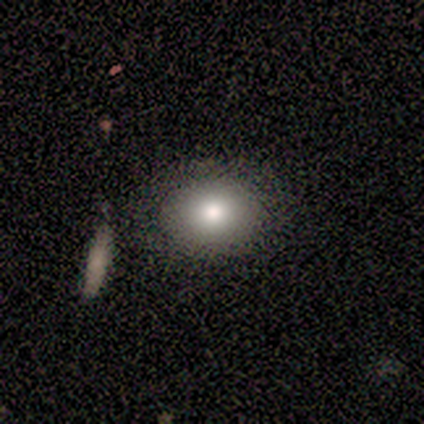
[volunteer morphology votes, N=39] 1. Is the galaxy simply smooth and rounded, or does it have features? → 72% smooth, 15% featured or disk, 13% star or artifact.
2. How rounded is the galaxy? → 50% round (tied), 50% in between (tied), 0% cigar-shaped.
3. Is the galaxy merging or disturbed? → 82% none, 6% minor disturbance, 6% major disturbance, 6% merger.